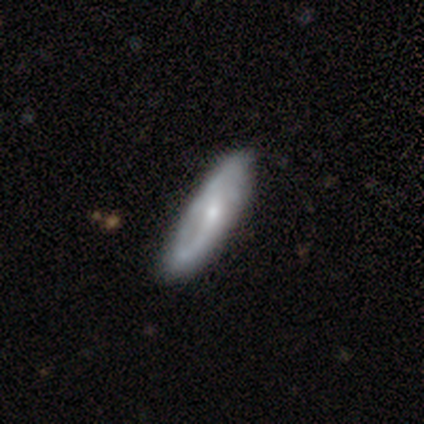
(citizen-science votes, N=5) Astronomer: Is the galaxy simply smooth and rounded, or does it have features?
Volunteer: featured or disk — 60%.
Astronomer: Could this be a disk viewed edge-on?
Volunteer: no — 67%.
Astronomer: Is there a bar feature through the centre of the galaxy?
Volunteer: weak — 50%, tied with no at 50%.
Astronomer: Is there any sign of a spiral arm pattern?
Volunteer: yes — 100%.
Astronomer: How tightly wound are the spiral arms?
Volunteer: tight — 50%, tied with loose at 50%.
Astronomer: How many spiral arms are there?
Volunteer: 1 — 50%, tied with 2 at 50%.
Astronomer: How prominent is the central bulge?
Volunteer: moderate — 50%, tied with small at 50%.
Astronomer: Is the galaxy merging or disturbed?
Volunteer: none — 50%.